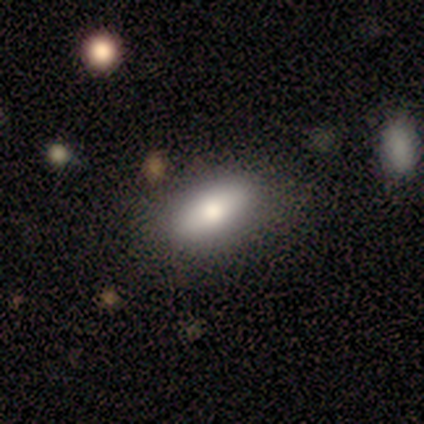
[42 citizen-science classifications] Smooth or featured? 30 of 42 (71%) said smooth. How rounded? 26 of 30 (87%) said in between. Merging? 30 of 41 (73%) said none.